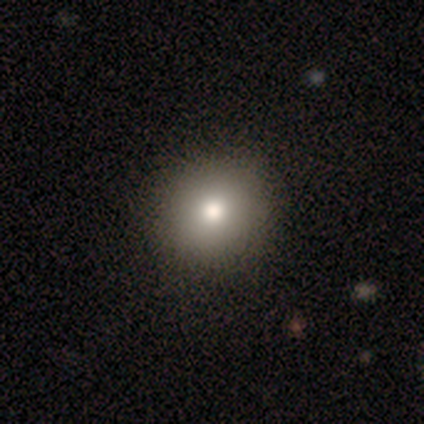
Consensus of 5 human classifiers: A smooth galaxy with no disk features (40%, tied with featured or disk) that is round (50%, tied with in between). Merging: none (100%).